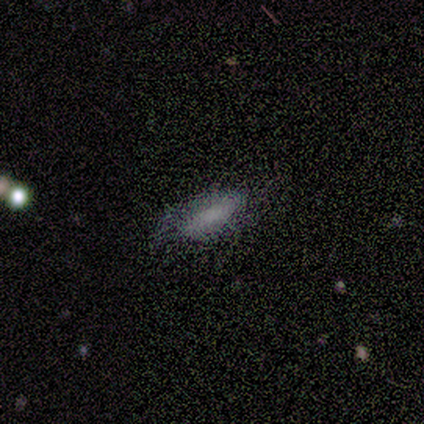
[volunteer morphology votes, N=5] This is marginally a smooth galaxy (40%, tied with featured or disk). How rounded: clearly in between (100%). Merging: likely none (75%).